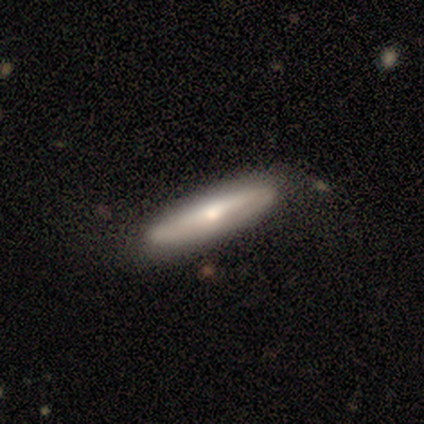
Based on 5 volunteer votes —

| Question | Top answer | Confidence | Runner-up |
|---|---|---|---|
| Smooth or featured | smooth | 60% | featured or disk (40%) |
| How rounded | in between | 67% | cigar-shaped (33%) |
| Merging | none | 60% | minor disturbance (20%) |